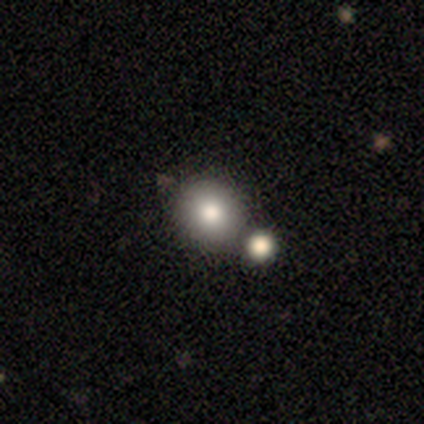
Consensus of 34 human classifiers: smooth-or-featured: smooth: 82% | featured or disk: 12% | star or artifact: 6%
  how-rounded: round: 93% | in between: 7% | cigar-shaped: 0%
  merging: merger: 53% | none: 0% | minor disturbance: 0% | major disturbance: 0%